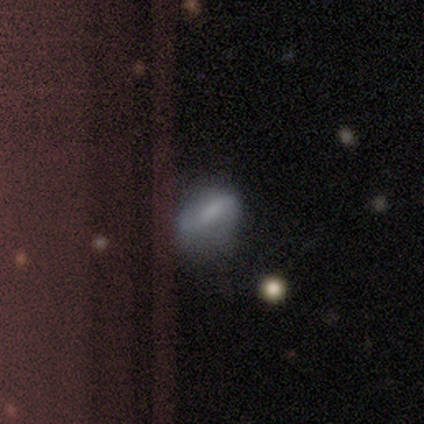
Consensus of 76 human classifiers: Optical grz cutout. It shows a smooth galaxy with no disk features (50%) that is in between round and cigar-shaped (71%). Merging: none (24%, tied with minor disturbance).